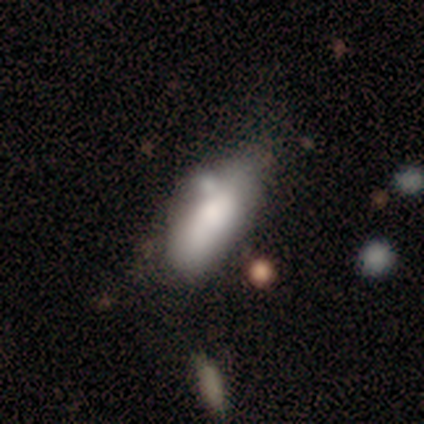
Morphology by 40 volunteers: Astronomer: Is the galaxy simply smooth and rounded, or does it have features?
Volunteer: smooth — 60%.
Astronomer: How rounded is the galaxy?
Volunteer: in between — 96%.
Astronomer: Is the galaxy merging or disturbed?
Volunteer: minor disturbance — 37% (runner-up: none, 24%).